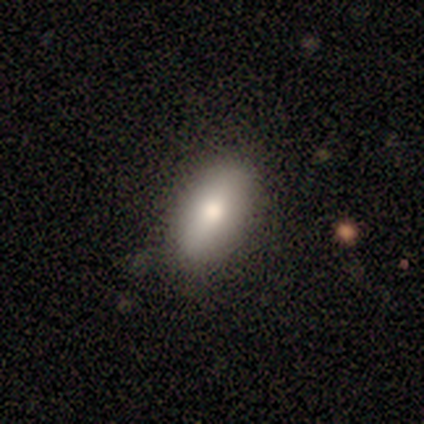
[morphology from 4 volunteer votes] Smooth or featured? 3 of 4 (75%) said smooth. How rounded? 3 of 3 (100%) said in between. Merging? 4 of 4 (100%) said none.